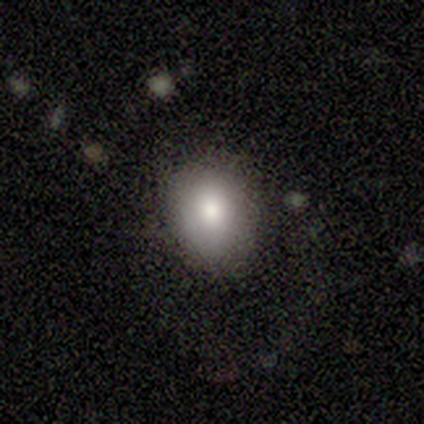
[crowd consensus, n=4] This appears to be a smooth galaxy with no disk features (75%) that is in between round and cigar-shaped (100%). Merging: none (75%).